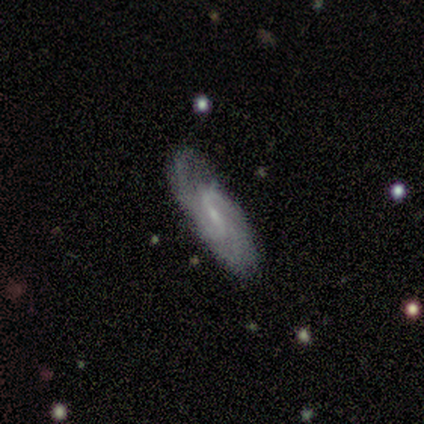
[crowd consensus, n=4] featured or disk 100%, smooth 0%, star or artifact 0%. Down the decision tree: edge-on disk — no (75%); bar — strong (33%, tied with weak and no); spiral arms — yes (100%); spiral arm count — 2 (100%); spiral winding — medium (67%); bulge size — small (67%); merging — none (100%).